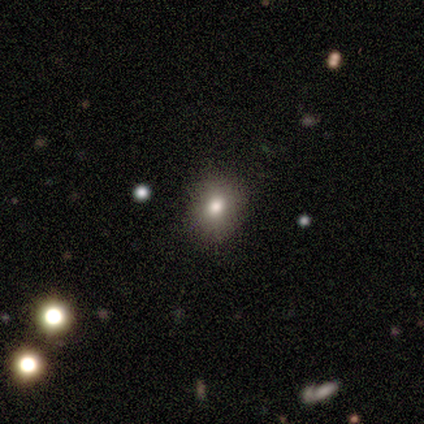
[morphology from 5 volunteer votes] Smooth or featured: smooth — 100%
How rounded: round — 100%
Merging: none — 100%